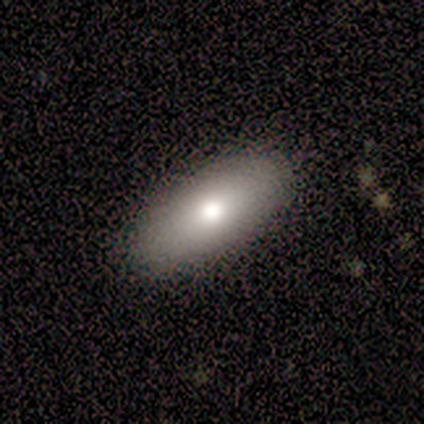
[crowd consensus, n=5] Morphology: type=smooth (100%); roundness=in between (100%); merging=none (80%).